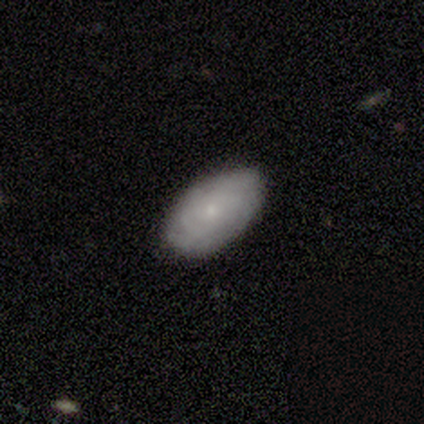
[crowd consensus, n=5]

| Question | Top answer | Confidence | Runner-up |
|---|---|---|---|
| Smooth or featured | featured or disk | 60% | smooth (40%) |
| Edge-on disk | no | 100% | — |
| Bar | no | 100% | — |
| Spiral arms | yes | 100% | — |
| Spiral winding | medium | 67% | tight (33%) |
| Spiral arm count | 3 | 67% | can't tell (33%) |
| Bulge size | small | 100% | — |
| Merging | none | 80% | minor disturbance (20%) |